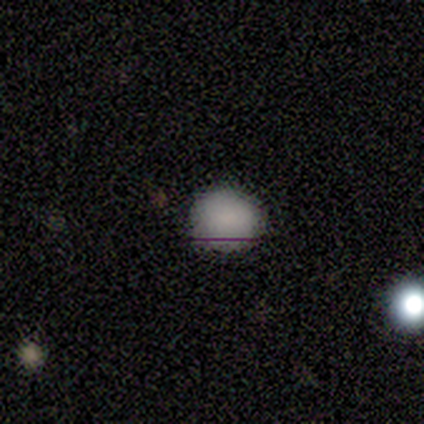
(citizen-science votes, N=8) This is likely a smooth galaxy (75%). How rounded: likely round (67%). Merging: clearly none (100%).